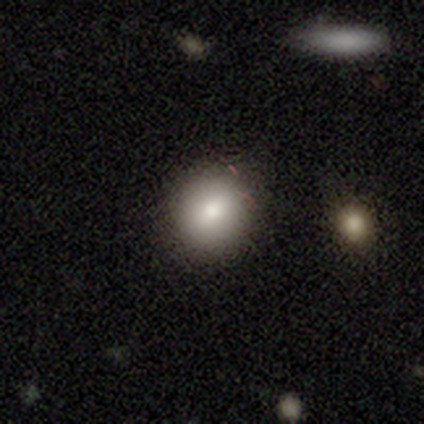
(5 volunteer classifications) Q: Smooth or featured?
A: smooth (100%)
Q: How rounded?
A: round (80%); runner-up: in between (20%)
Q: Merging?
A: none (100%)